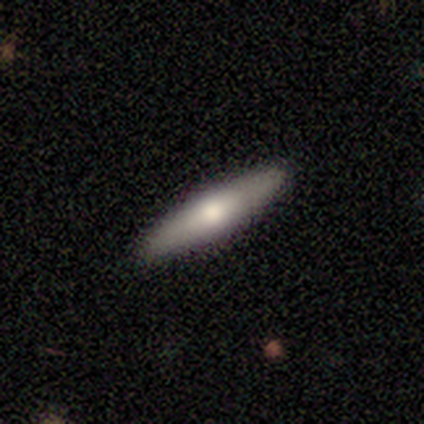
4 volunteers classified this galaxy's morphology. A smooth galaxy with no disk features (50%) that is in between round and cigar-shaped (50%, tied with cigar-shaped).

Vote fractions:
- Smooth or featured? smooth: 50% / featured or disk: 25% / star or artifact: 25%
- How rounded? in between: 50% (tied) / cigar-shaped: 50% (tied) / round: 0%
- Merging? none: 100% / minor disturbance: 0% / major disturbance: 0% / merger: 0%